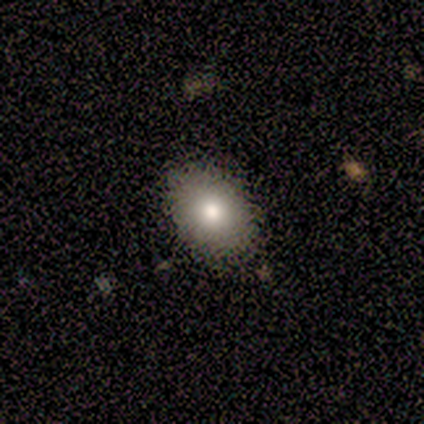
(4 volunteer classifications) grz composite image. It shows a smooth galaxy with no disk features (100%) that is in between round and cigar-shaped (50%). Merging: none (100%).